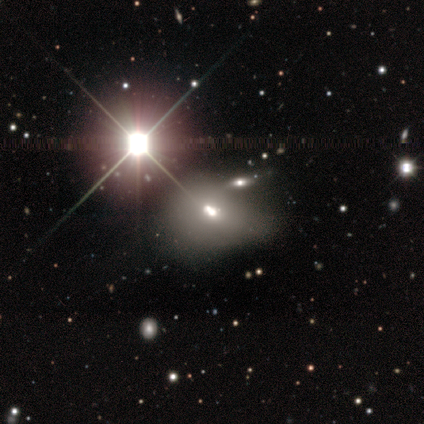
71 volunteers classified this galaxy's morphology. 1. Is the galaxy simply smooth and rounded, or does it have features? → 45% smooth, 42% star or artifact, 13% featured or disk.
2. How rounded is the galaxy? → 62% in between, 38% round, 0% cigar-shaped.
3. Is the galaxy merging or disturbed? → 39% merger, 17% minor disturbance, 10% none, 2% major disturbance.